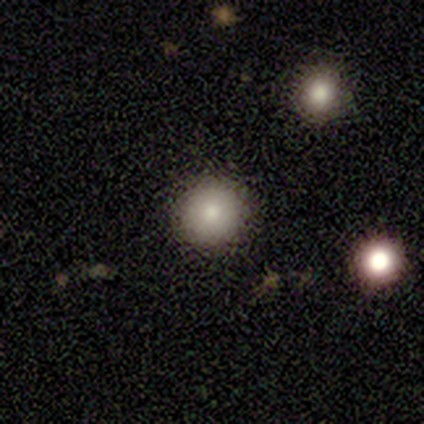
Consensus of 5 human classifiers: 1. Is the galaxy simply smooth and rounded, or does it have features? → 100% smooth, 0% featured or disk, 0% star or artifact.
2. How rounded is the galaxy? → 100% round, 0% in between, 0% cigar-shaped.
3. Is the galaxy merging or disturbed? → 100% none, 0% minor disturbance, 0% major disturbance, 0% merger.